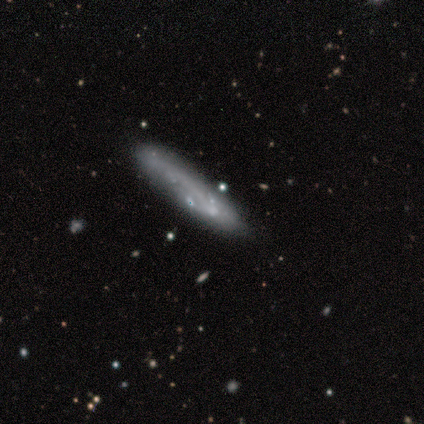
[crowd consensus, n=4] Morphology: type=featured or disk (50%); edge-on=yes (50%, tied with no); edge-on bulge=none (100%); merging=none (67%).